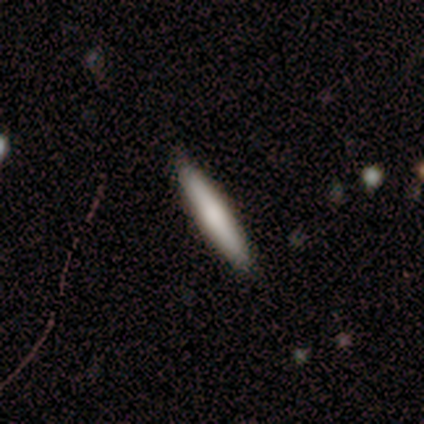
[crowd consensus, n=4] A smooth galaxy with no disk features (100%) that is cigar-shaped (75%). Merging: none (75%).